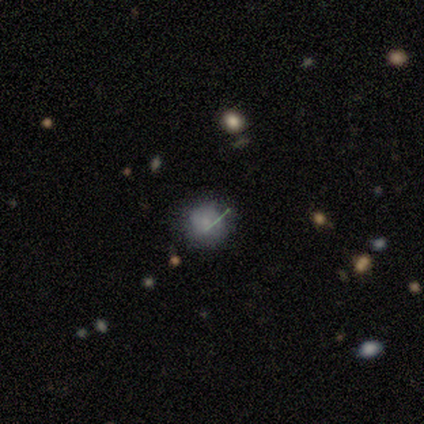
Smooth or featured? smooth (60%)
How rounded? round (100%)
Merging? none (100%)